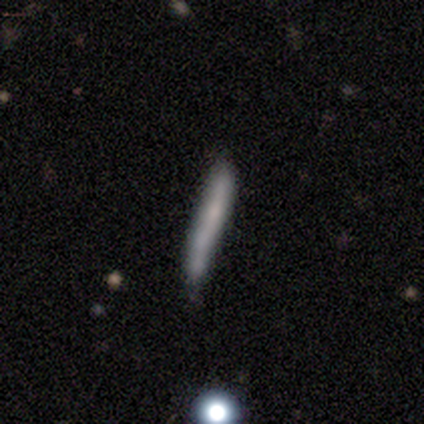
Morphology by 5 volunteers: smooth_or_featured: smooth (p=0.80) [alt: featured or disk p=0.20]
how_rounded: cigar-shaped (p=1.00)
merging: none (p=0.80) [alt: minor disturbance p=0.20]